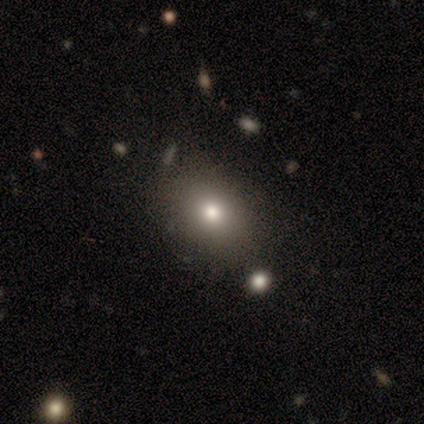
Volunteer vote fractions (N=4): Volunteers were most divided on "smooth or featured": smooth: 75%, featured or disk: 25%, star or artifact: 0%. More confident: how rounded — in between (100%); merging — none (75%).